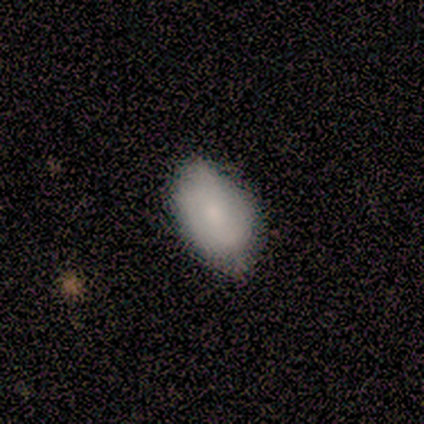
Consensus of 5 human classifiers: Q: Smooth or featured?
A: smooth (80%); runner-up: featured or disk (20%)
Q: How rounded?
A: in between (75%); runner-up: round (25%)
Q: Merging?
A: minor disturbance (60%); runner-up: none (40%)